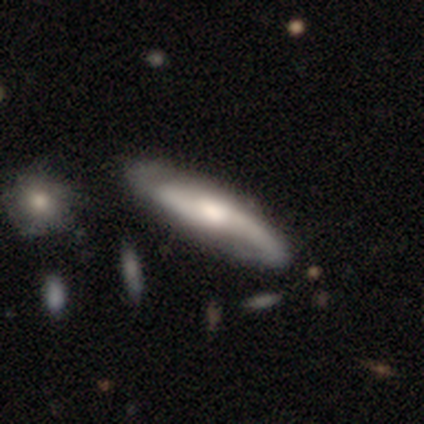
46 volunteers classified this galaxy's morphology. This appears to be a featured or disk galaxy (87%) with no bar (52%), 2 (87%) loose (65%) spiral arms (100%) and a moderate central bulge (77%). Merging: none (70%).